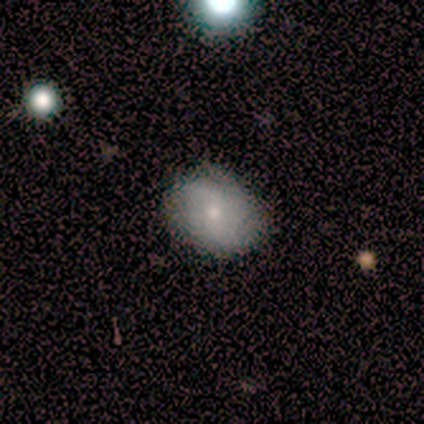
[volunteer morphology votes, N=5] smooth_or_featured: smooth (p=0.80) [alt: featured or disk p=0.20]
how_rounded: in between (p=0.75) [alt: round p=0.25]
merging: none (p=0.60) [alt: minor disturbance p=0.40]